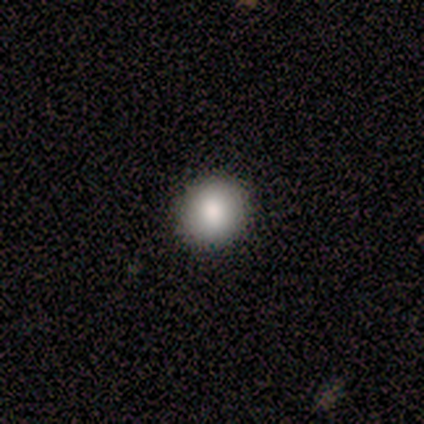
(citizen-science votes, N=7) Smooth or featured? 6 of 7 (86%) said smooth. How rounded? 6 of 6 (100%) said round. Merging? 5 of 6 (83%) said none.